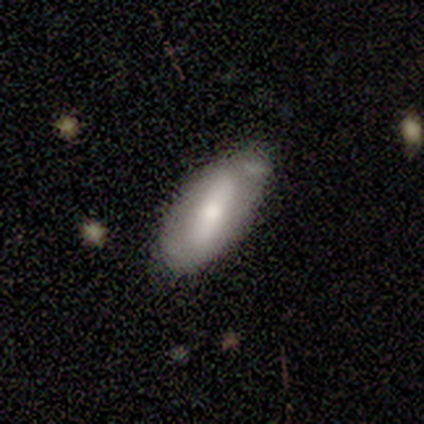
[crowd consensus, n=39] Smooth or featured: smooth — 56% (featured or disk — 41%)
How rounded: in between — 82% (cigar-shaped — 18%)
Merging: none — 42% (minor disturbance — 34%)